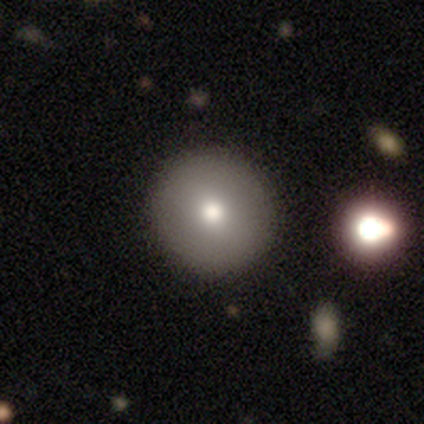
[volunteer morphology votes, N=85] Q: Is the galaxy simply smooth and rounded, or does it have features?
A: smooth — 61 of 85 (72%).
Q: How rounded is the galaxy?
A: round — 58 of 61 (95%).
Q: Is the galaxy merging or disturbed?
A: none — 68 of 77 (88%).